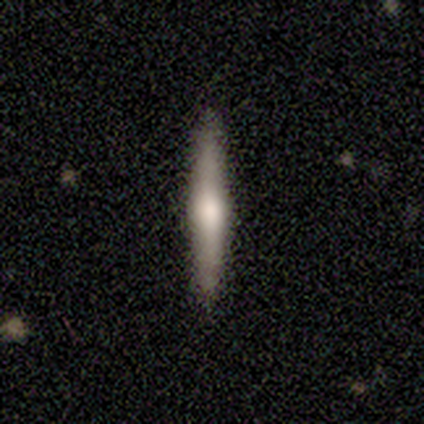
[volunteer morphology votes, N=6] type=featured or disk (83%); edge-on=yes (100%); edge-on bulge=rounded (100%); merging=none (100%).